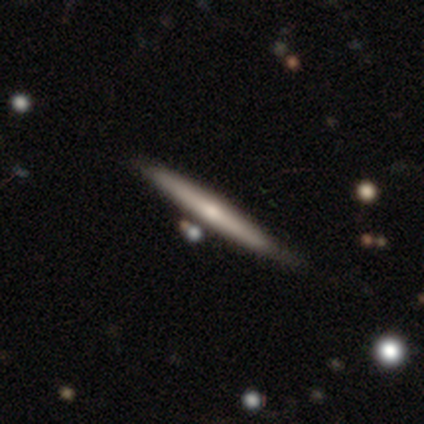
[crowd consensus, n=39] This appears to be a featured or disk galaxy (62%) viewed edge-on (96%) with a rounded central bulge (74%). Merging: none (56%).